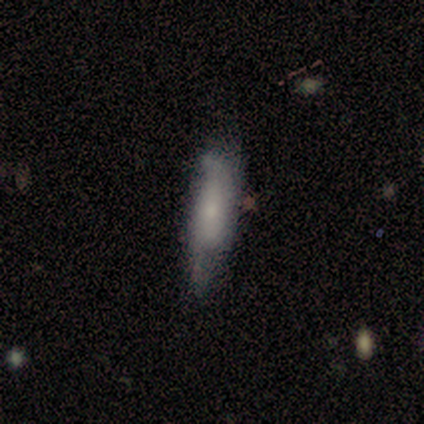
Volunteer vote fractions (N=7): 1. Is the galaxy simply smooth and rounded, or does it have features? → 71% smooth, 29% featured or disk, 0% star or artifact.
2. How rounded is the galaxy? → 60% cigar-shaped, 40% in between, 0% round.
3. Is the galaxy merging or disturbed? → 57% minor disturbance, 43% none, 0% major disturbance, 0% merger.